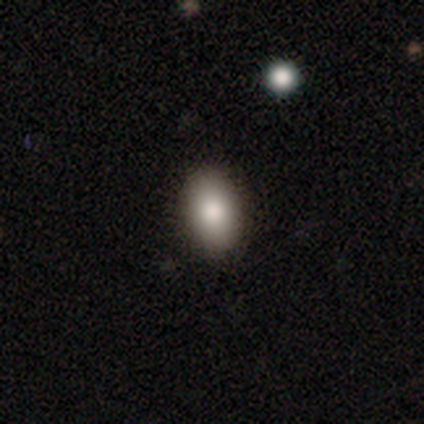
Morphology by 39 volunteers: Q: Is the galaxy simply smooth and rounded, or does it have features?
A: smooth — 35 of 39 (90%).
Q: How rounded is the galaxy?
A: in between — 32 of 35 (91%).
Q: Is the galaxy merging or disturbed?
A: none — 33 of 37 (89%).